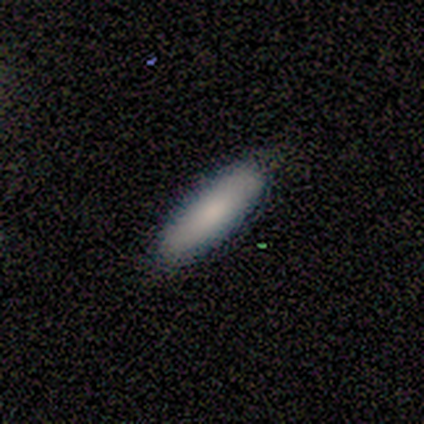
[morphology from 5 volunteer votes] smooth-or-featured: smooth: 100% | featured or disk: 0% | star or artifact: 0%
  how-rounded: in between: 80% | cigar-shaped: 20% | round: 0%
  merging: none: 100% | minor disturbance: 0% | major disturbance: 0% | merger: 0%